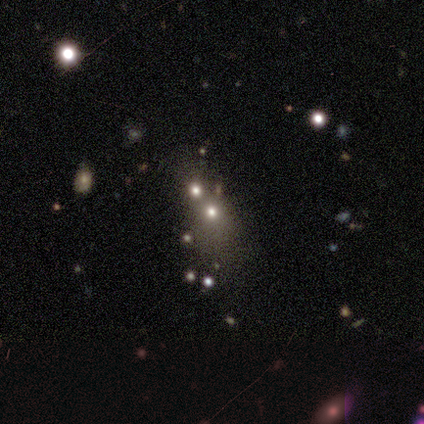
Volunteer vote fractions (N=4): A smooth galaxy with no disk features (50%) that is round (50%, tied with in between).

Vote fractions:
- Smooth or featured? smooth: 50% / featured or disk: 25% / star or artifact: 25%
- How rounded? round: 50% (tied) / in between: 50% (tied) / cigar-shaped: 0%
- Merging? merger: 67% / minor disturbance: 33% / none: 0% / major disturbance: 0%